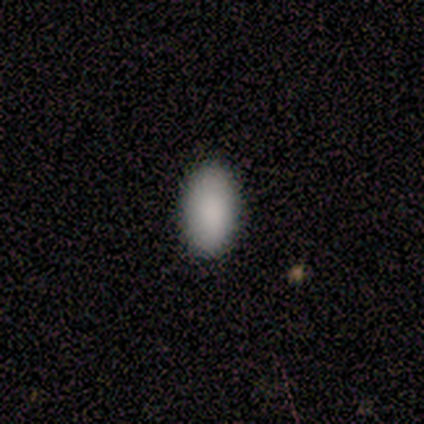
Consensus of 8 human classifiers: smooth 100%, featured or disk 0%, star or artifact 0%. Down the decision tree: how rounded — in between (100%); merging — none (88%).